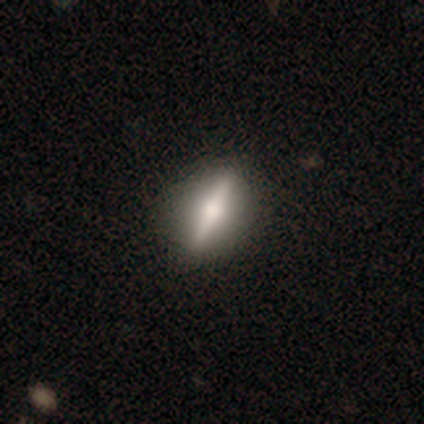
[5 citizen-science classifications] Smooth or featured? featured or disk (80%)
Edge-on disk? yes (100%)
Edge-on bulge? rounded (100%)
Merging? none (100%)